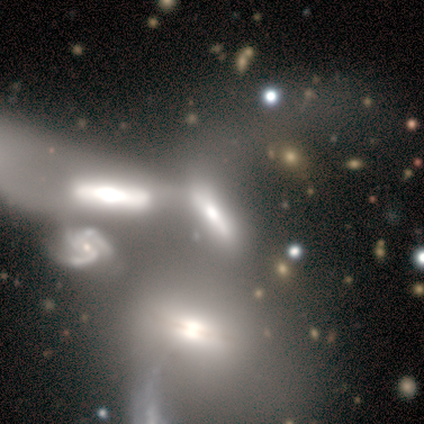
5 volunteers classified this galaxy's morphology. Smooth or featured: featured or disk — 80% (smooth — 20%)
Edge-on disk: no — 75% (yes — 25%)
Bar: no — 67% (weak — 33%)
Spiral arms: yes — 100%
Spiral winding: medium — 67% (loose — 33%)
Spiral arm count: 2 — 33% (tied with 3 — 33%; 4 — 33%)
Bulge size: small — 100%
Merging: merger — 60% (none — 20%)